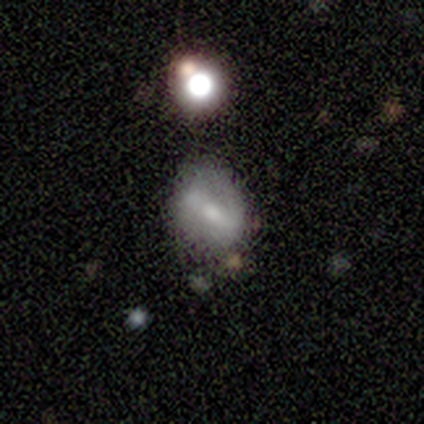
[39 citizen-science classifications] A smooth galaxy with no disk features (46%, tied with featured or disk) that is round (56%).

Vote fractions:
- Smooth or featured? smooth: 46% (tied) / featured or disk: 46% (tied) / star or artifact: 8%
- How rounded? round: 56% / in between: 39% / cigar-shaped: 6%
- Merging? none: 61% / minor disturbance: 25% / merger: 8% / major disturbance: 6%